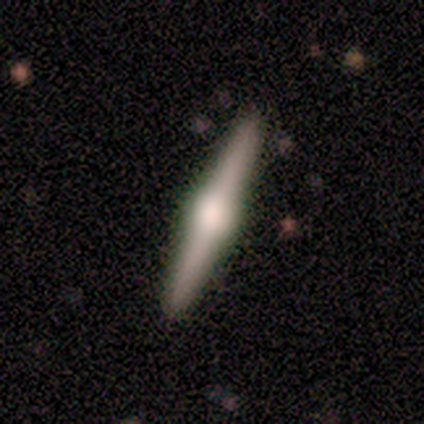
Smooth or featured? 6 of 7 (86%) said featured or disk. Edge-on disk? 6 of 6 (100%) said yes. Edge-on bulge? 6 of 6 (100%) said rounded. Merging? 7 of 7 (100%) said none.